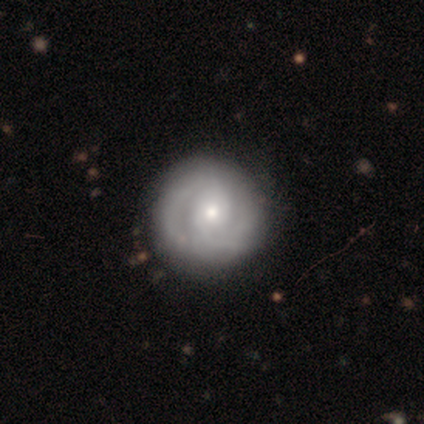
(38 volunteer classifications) Smooth or featured?
  - featured or disk: 63% *
  - smooth: 34%
  - star or artifact: 3%
Edge-on disk?
  - no: 96% *
  - yes: 4%
Bar?
  - no: 70% *
  - weak: 22%
  - strong: 9%
Spiral arms?
  - yes: 78% *
  - no: 22%
Spiral winding?
  - tight: 61% *
  - medium: 28%
  - loose: 11%
Spiral arm count?
  - 2: 61% *
  - can't tell: 28%
  - 1: 6%
  - 3: 6%
  - 4: 0%
  - more than 4: 0%
Bulge size?
  - moderate: 43% *
  - small: 39%
  - none: 13%
  - large: 4%
  - dominant: 0%
Merging?
  - none: 70% *
  - minor disturbance: 3%
  - major disturbance: 3%
  - merger: 3%